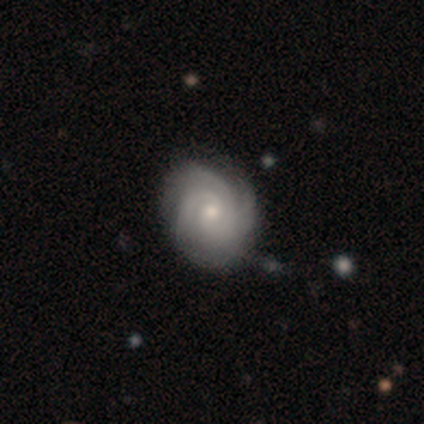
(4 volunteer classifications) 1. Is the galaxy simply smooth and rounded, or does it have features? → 75% featured or disk, 25% smooth, 0% star or artifact.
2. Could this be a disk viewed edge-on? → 100% no, 0% yes.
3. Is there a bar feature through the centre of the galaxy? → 67% no, 33% weak, 0% strong.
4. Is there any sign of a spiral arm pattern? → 100% yes, 0% no.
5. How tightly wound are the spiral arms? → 67% tight, 33% medium, 0% loose.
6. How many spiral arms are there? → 67% 3, 33% can't tell, 0% 1, 0% 2, 0% 4, 0% more than 4.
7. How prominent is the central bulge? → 67% small, 33% moderate, 0% dominant, 0% large, 0% none.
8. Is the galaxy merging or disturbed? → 100% none, 0% minor disturbance, 0% major disturbance, 0% merger.